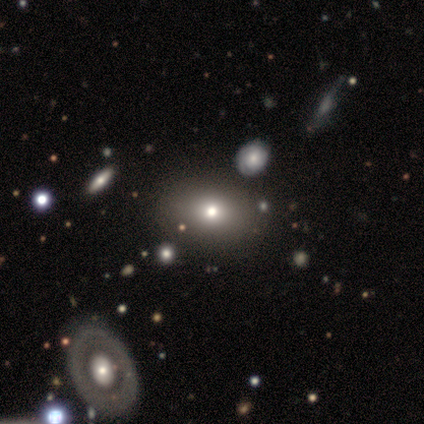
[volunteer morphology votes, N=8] Q: Smooth or featured?
A: smooth (62%); runner-up: star or artifact (38%)
Q: How rounded?
A: in between (80%); runner-up: round (20%)
Q: Merging?
A: none (80%); runner-up: minor disturbance (20%)